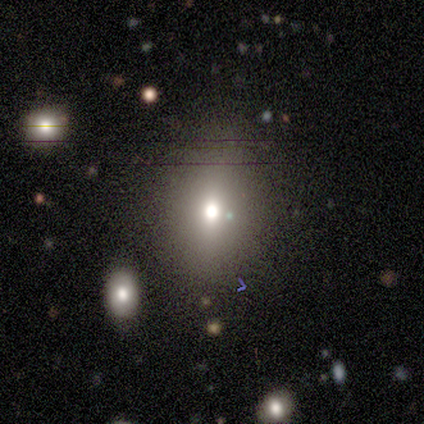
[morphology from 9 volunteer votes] This is likely a smooth galaxy (67%). How rounded: clearly in between (83%). Merging: clearly none (100%).